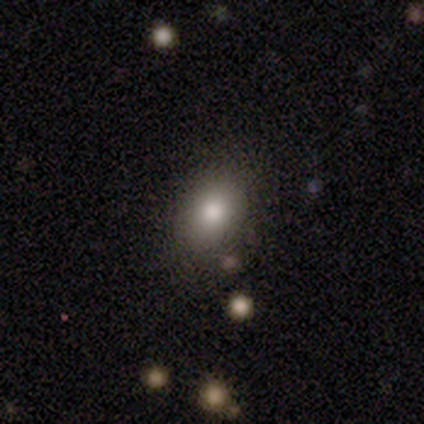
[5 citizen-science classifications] Q: Smooth or featured?
A: smooth (100%)
Q: How rounded?
A: in between (100%)
Q: Merging?
A: none (100%)